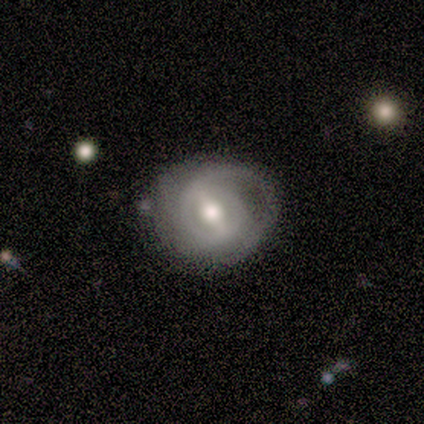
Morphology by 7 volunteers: featured or disk 86%, smooth 14%, star or artifact 0%. Down the decision tree: edge-on disk — no (100%); bar — strong (67%); spiral arms — yes (67%); spiral arm count — 2 (50%); spiral winding — tight (75%); bulge size — moderate (67%); merging — none (71%).